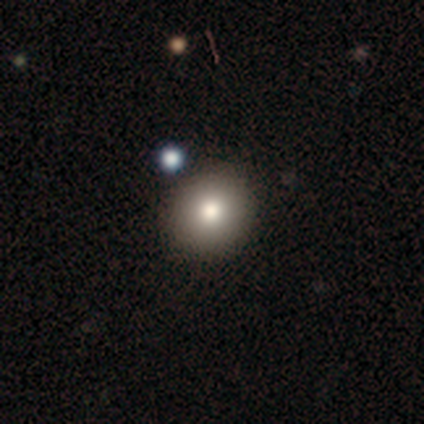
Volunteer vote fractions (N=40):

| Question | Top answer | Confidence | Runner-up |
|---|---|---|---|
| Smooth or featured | smooth | 88% | star or artifact (12%) |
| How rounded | round | 97% | in between (3%) |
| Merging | none | 97% | merger (3%) |